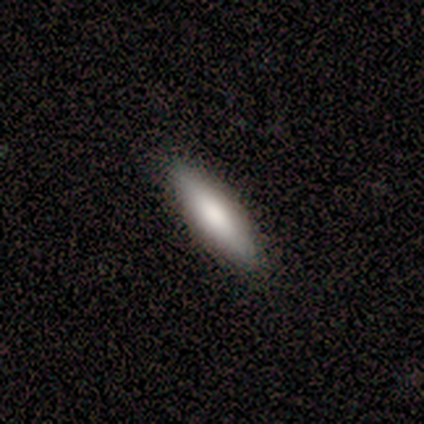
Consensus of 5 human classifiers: Volunteers were most divided on "how rounded": in between: 60%, cigar-shaped: 40%, round: 0%. More confident: smooth or featured — smooth (100%); merging — none (100%).